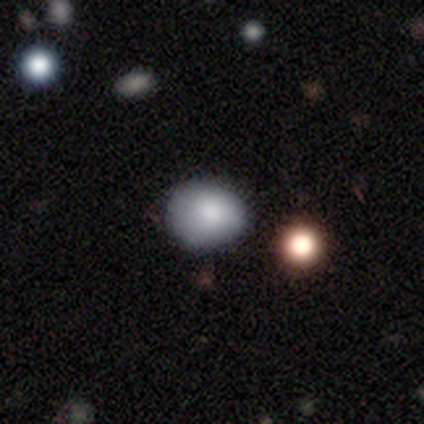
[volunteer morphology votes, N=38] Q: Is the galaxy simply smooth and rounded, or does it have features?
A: smooth — 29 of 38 (76%).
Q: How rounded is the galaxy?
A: round — 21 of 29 (72%).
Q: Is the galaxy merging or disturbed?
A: none — 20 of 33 (61%).